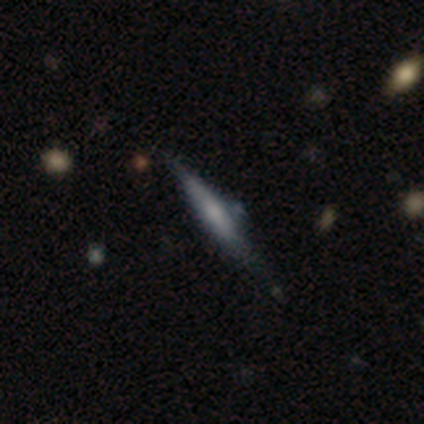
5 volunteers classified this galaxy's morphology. Overall: featured or disk (80%). Edge-on disk: yes (100%). Edge-on bulge: rounded (100%). Merging: minor disturbance (60%; none 40%).